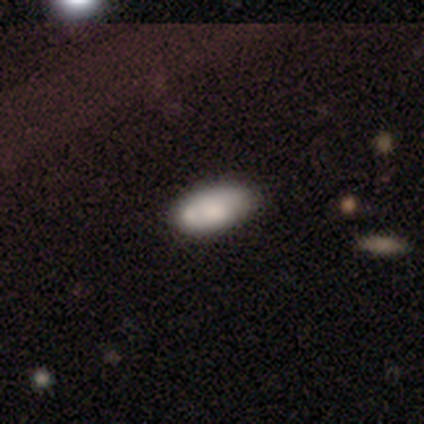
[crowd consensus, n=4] This appears to be a smooth galaxy with no disk features (75%) that is in between round and cigar-shaped (67%). Merging: none (67%).